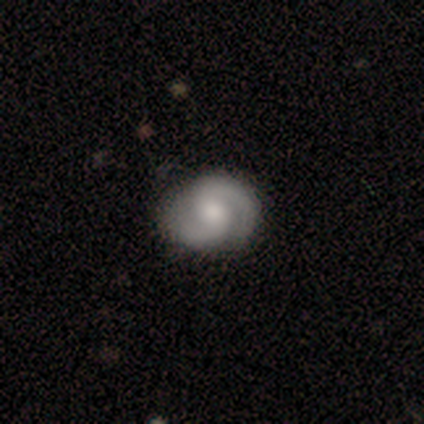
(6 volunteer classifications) smooth_or_featured: featured or disk (p=1.00)
disk_edge_on: no (p=1.00)
bar: no (p=0.50) [alt: weak p=0.33]
has_spiral_arms: yes (p=0.83) [alt: no p=0.17]
spiral_winding: medium (p=0.80) [alt: tight p=0.20]
spiral_arm_count: 2 (p=1.00)
bulge_size: moderate (p=0.83) [alt: small p=0.17]
merging: none (p=0.83) [alt: minor disturbance p=0.17]